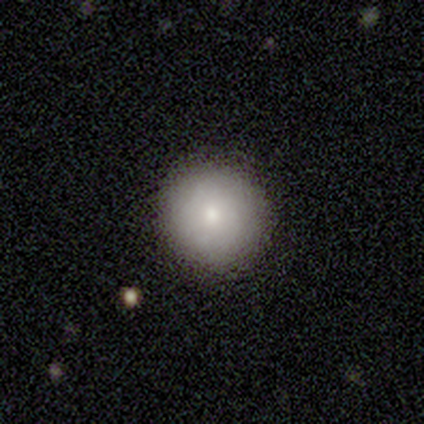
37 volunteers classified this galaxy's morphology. Smooth or featured? smooth (89%)
How rounded? round (97%)
Merging? none (100%)